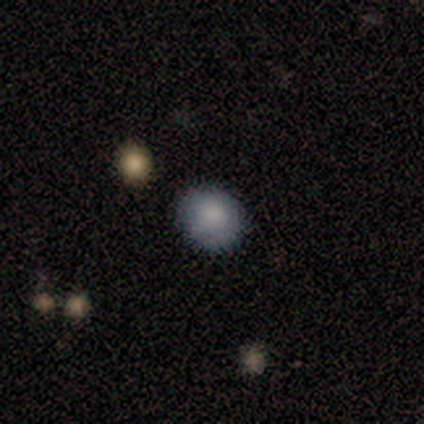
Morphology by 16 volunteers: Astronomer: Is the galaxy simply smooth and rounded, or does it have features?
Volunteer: smooth — 62%.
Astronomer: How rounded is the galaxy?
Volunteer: round — 90%.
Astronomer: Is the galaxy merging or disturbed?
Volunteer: none — 100%.